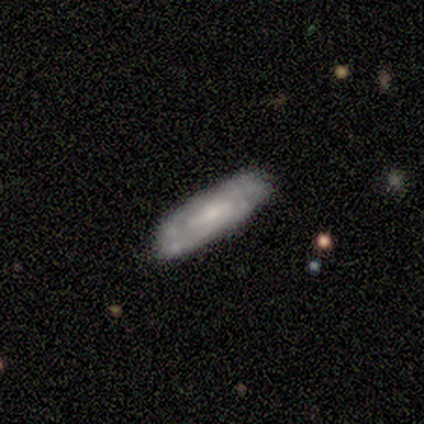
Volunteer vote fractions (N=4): Smooth or featured? featured or disk (75%)
Edge-on disk? no (67%)
Bar? no (100%)
Spiral arms? yes (100%)
Spiral winding? tight (50%, tied with medium)
Spiral arm count? 2 (50%, tied with can't tell)
Bulge size? small (50%, tied with none)
Merging? none (75%)